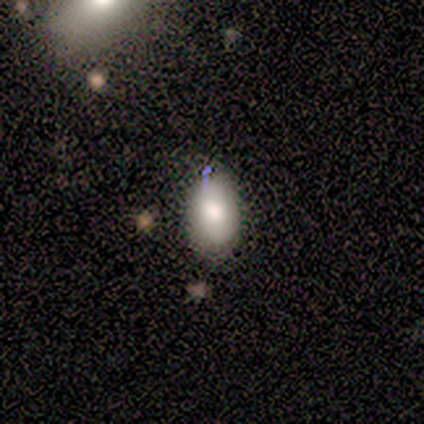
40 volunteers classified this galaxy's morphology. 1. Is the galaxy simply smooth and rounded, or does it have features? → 70% smooth, 22% featured or disk, 8% star or artifact.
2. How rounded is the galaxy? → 89% in between, 11% round, 0% cigar-shaped.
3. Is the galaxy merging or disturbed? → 65% none, 24% minor disturbance, 8% major disturbance, 3% merger.